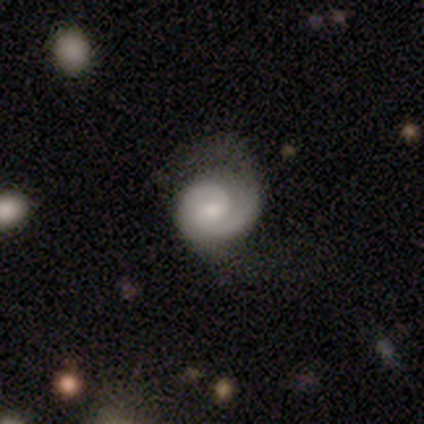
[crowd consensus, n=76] featured or disk 83%, smooth 14%, star or artifact 3%. Down the decision tree: edge-on disk — no (100%); bar — no (63%); spiral arms — yes (97%); spiral arm count — 2 (52%); spiral winding — tight (64%); bulge size — small (40%); merging — none (59%).